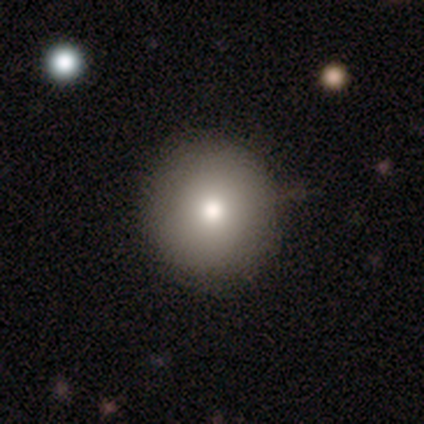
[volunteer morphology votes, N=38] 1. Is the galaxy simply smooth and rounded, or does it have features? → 82% smooth, 18% featured or disk, 0% star or artifact.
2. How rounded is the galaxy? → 90% round, 10% in between, 0% cigar-shaped.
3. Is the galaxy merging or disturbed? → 66% none, 5% minor disturbance, 3% major disturbance, 0% merger.